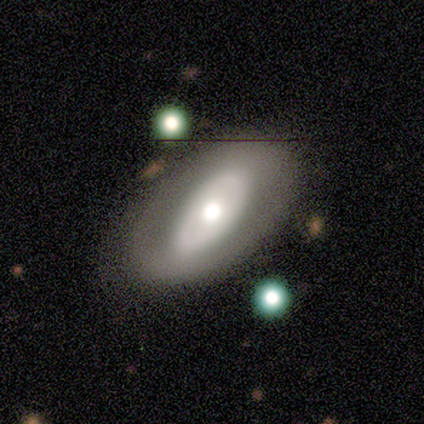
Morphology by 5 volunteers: smooth_or_featured: smooth (p=0.60) [alt: featured or disk p=0.40]
how_rounded: in between (p=1.00)
merging: none (p=0.80) [alt: merger p=0.20]